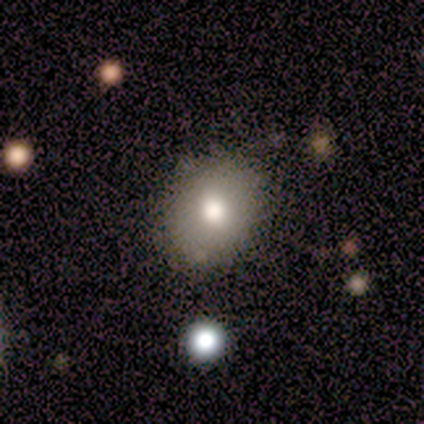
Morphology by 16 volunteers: Overall: smooth (69%). How rounded: round (55%; in between 45%). Merging: none (80%).